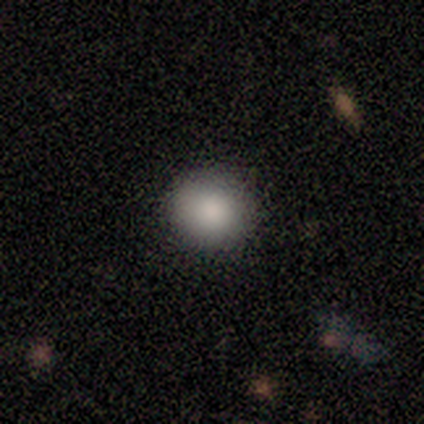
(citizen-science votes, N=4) smooth_or_featured: smooth (p=0.75) [alt: star or artifact p=0.25]
how_rounded: round (p=1.00)
merging: none (p=1.00)